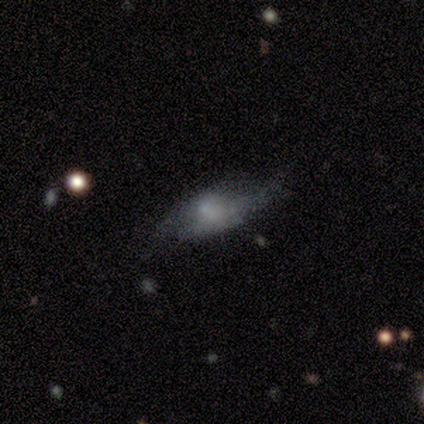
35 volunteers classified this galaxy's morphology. Smooth or featured?
  - featured or disk: 51% *
  - smooth: 43%
  - star or artifact: 6%
Edge-on disk?
  - no: 78% *
  - yes: 22%
Bar?
  - no: 86% *
  - strong: 7%
  - weak: 7%
Spiral arms?
  - no: 86% *
  - yes: 14%
Bulge size?
  - none: 71% *
  - small: 21%
  - moderate: 7%
  - dominant: 0%
  - large: 0%
Merging?
  - minor disturbance: 42% *
  - none: 33%
  - major disturbance: 24%
  - merger: 0%